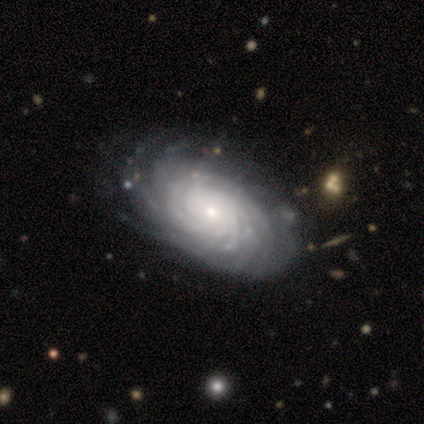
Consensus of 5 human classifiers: featured or disk 80%, smooth 20%, star or artifact 0%. Down the decision tree: edge-on disk — no (100%); bar — no (100%); spiral arms — yes (100%); spiral arm count — more than 4 (50%); spiral winding — tight (100%); bulge size — small (75%); merging — none (80%).